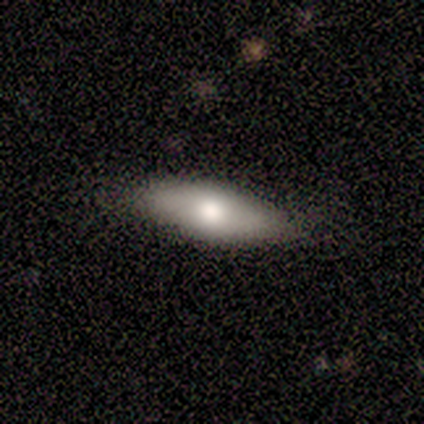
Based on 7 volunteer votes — This appears to be a smooth galaxy with no disk features (71%) that is in between round and cigar-shaped (60%). Merging: none (100%).